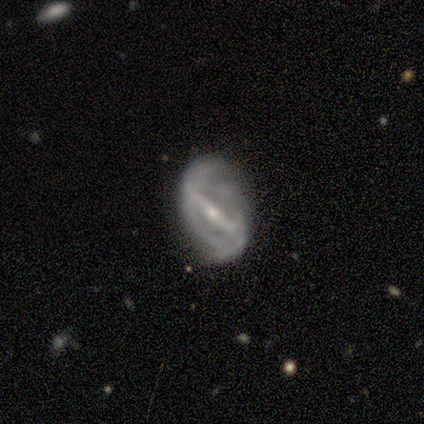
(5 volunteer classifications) Morphology: type=featured or disk (100%); edge-on=no (100%); bar=strong (80%); spiral arms=yes (100%); winding=medium (60%); arm count=2 (60%); bulge=small (80%); merging=none (100%).